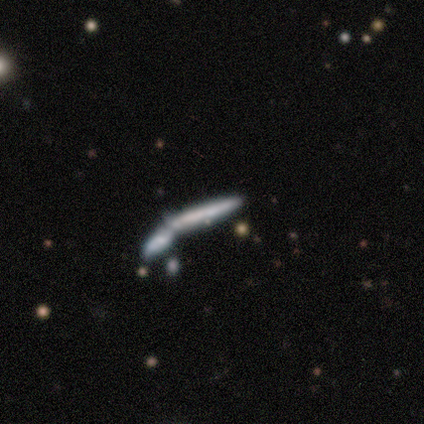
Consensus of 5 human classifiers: smooth 80%, featured or disk 20%, star or artifact 0%. Down the decision tree: how rounded — cigar-shaped (100%); merging — merger (100%).